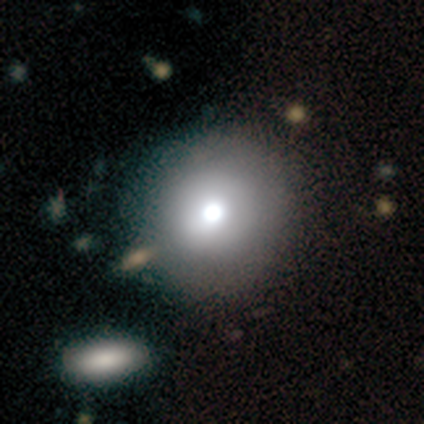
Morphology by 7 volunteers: type=smooth (100%); roundness=round (100%); merging=none (100%).